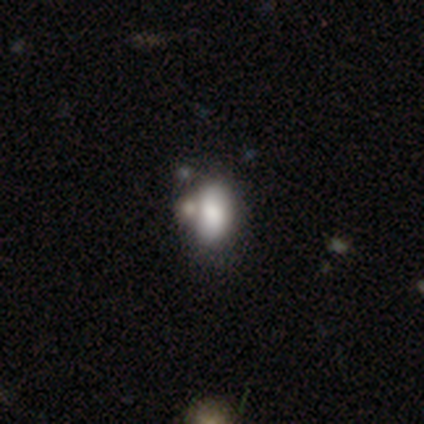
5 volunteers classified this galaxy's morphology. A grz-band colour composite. It shows a smooth galaxy with no disk features (80%) that is in between round and cigar-shaped (100%). Merging: none (50%).